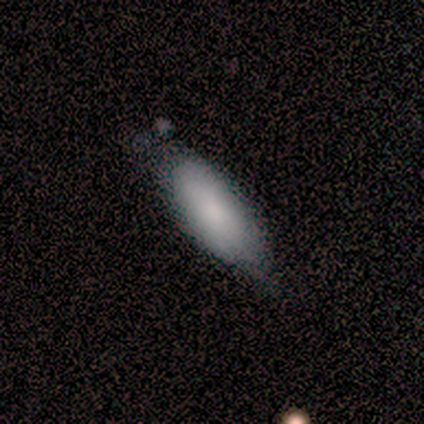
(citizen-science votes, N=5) Volunteers were most divided on "merging": none: 60%, minor disturbance: 40%, major disturbance: 0%, merger: 0%. More confident: how rounded — in between (100%); smooth or featured — smooth (80%).